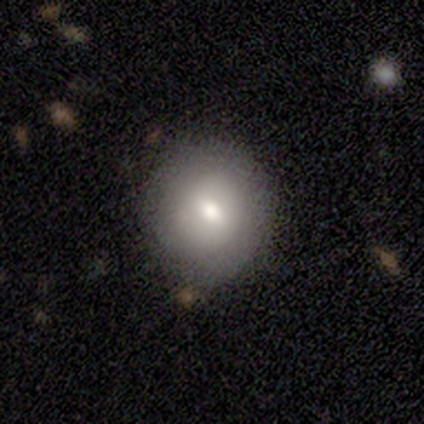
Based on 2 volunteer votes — A smooth galaxy with no disk features (50%, tied with featured or disk) that is round (100%). Merging: none (50%, tied with minor disturbance).